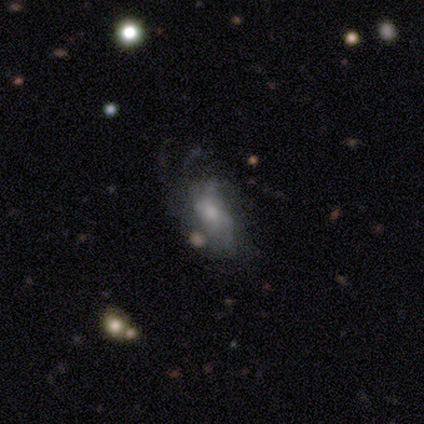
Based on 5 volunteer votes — smooth_or_featured: featured or disk (p=0.60) [alt: star or artifact p=0.40]
disk_edge_on: no (p=1.00)
bar: no (p=0.67) [alt: weak p=0.33]
has_spiral_arms: yes (p=0.67) [alt: no p=0.33]
spiral_winding: medium (p=0.50) [tied with: loose p=0.50]
spiral_arm_count: 2 (p=0.50) [tied with: 3 p=0.50]
bulge_size: small (p=1.00)
merging: none (p=0.67) [alt: minor disturbance p=0.33]